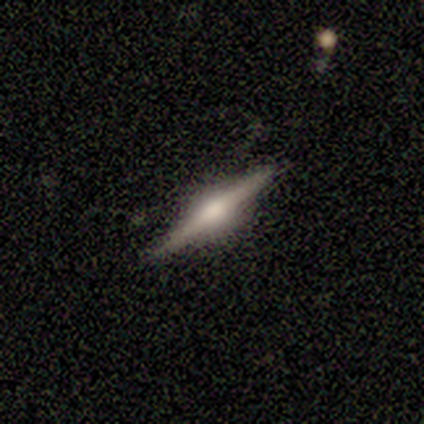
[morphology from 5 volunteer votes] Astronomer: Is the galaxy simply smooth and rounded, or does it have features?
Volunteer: featured or disk — 100%.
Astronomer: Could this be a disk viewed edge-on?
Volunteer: yes — 100%.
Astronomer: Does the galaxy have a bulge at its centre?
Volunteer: rounded — 80%.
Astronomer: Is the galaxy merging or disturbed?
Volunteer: none — 80%.